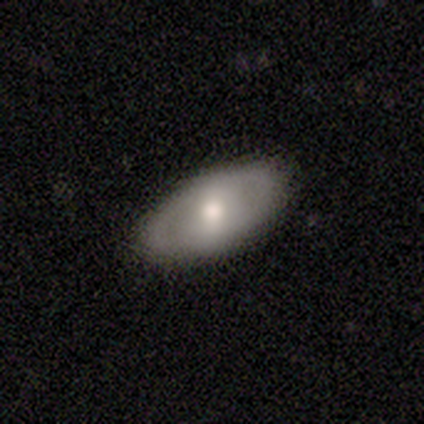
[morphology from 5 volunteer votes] smooth_or_featured: smooth (p=0.60) [alt: featured or disk p=0.40]
how_rounded: in between (p=1.00)
merging: none (p=0.80) [alt: minor disturbance p=0.20]